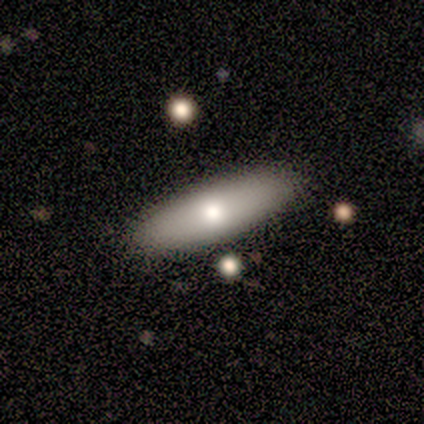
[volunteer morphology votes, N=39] This is likely a smooth galaxy (74%). How rounded: likely in between (62%). Merging: clearly none (92%).